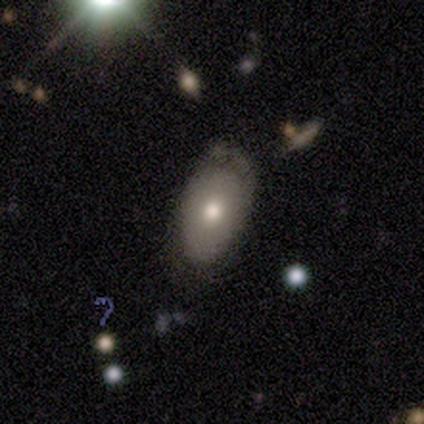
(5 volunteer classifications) Smooth or featured? 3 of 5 (60%) said smooth. How rounded? 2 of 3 (67%) said in between. Merging? 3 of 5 (60%) said none.